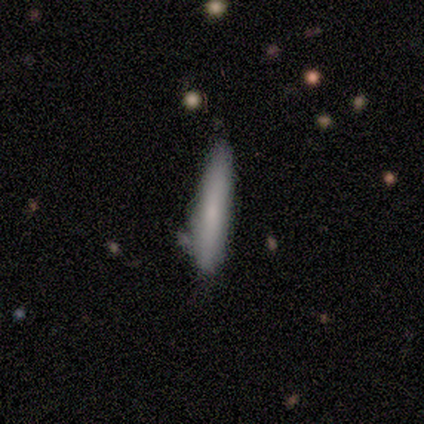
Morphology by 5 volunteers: Overall: smooth (80%). How rounded: cigar-shaped (100%). Merging: none (75%).